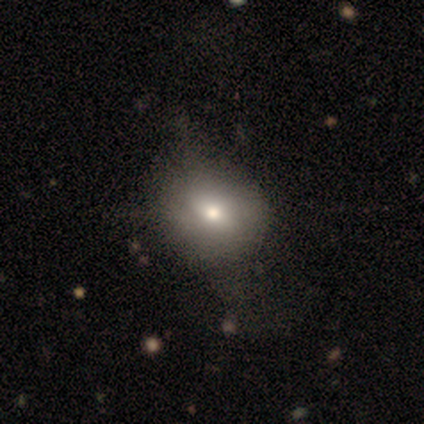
Smooth or featured? smooth (50%, tied with featured or disk)
How rounded? round (50%, tied with in between)
Merging? none (50%)